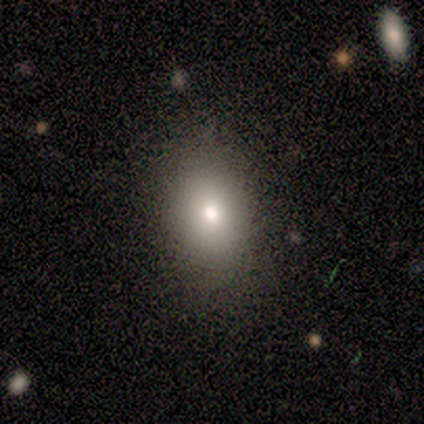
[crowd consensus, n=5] Morphology: type=smooth (80%); roundness=round (50%, tied with in between); merging=none (100%).